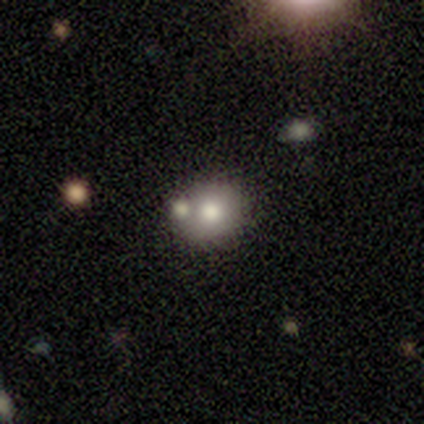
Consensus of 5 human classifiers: Overall: smooth (80%). How rounded: round (100%). Merging: none (75%).